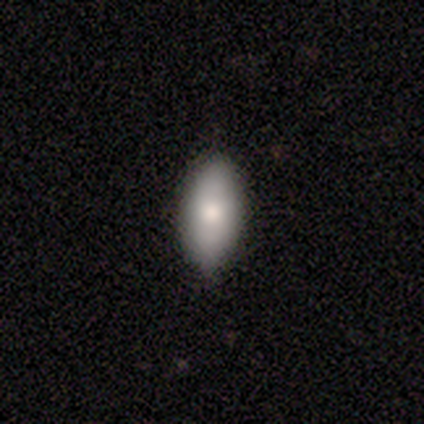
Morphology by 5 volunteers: This is clearly a smooth galaxy (100%). How rounded: clearly in between (100%). Merging: clearly none (80%).